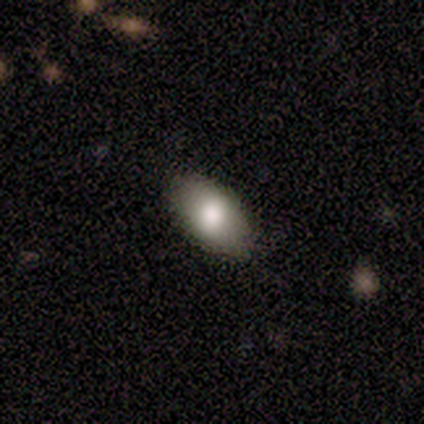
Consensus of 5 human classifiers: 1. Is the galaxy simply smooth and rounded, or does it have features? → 80% smooth, 20% featured or disk, 0% star or artifact.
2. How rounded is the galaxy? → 100% in between, 0% round, 0% cigar-shaped.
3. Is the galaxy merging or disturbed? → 80% none, 20% minor disturbance, 0% major disturbance, 0% merger.